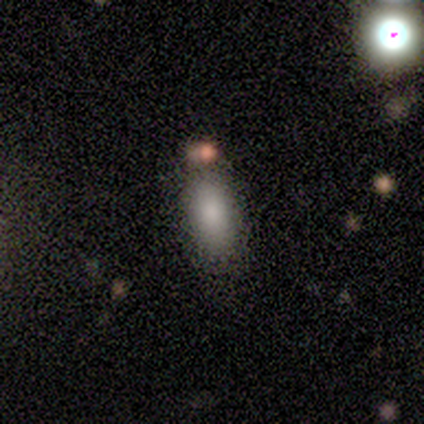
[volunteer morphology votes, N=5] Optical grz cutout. It shows a smooth galaxy with no disk features (100%) that is in between round and cigar-shaped (100%). Merging: none (40%).